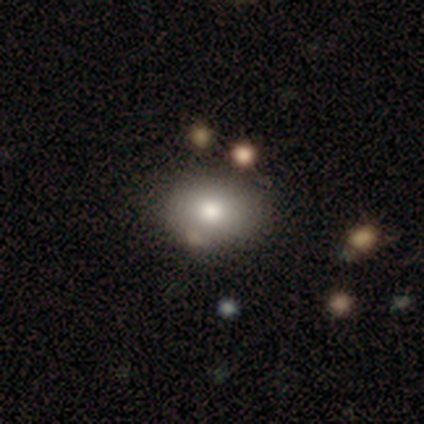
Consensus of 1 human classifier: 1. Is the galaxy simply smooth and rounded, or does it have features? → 100% featured or disk, 0% smooth, 0% star or artifact.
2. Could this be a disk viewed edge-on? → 100% no, 0% yes.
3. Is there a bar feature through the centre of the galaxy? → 100% no, 0% strong, 0% weak.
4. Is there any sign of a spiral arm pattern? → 100% no, 0% yes.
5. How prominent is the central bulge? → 100% large, 0% dominant, 0% moderate, 0% small, 0% none.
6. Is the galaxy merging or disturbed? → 100% merger, 0% none, 0% minor disturbance, 0% major disturbance.